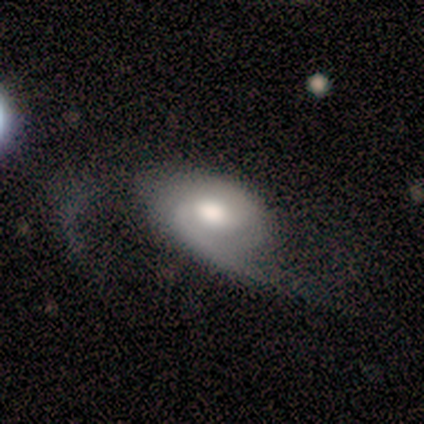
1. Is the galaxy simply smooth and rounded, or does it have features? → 100% featured or disk, 0% smooth, 0% star or artifact.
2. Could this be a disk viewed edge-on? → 80% no, 20% yes.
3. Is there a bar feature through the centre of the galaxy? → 50% weak (tied), 50% no (tied), 0% strong.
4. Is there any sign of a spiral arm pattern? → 75% yes, 25% no.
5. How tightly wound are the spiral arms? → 67% tight, 33% medium, 0% loose.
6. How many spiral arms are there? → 67% can't tell, 33% 2, 0% 1, 0% 3, 0% 4, 0% more than 4.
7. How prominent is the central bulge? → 75% moderate, 25% large, 0% dominant, 0% small, 0% none.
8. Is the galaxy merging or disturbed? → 40% none (tied), 40% major disturbance (tied), 20% minor disturbance, 0% merger.